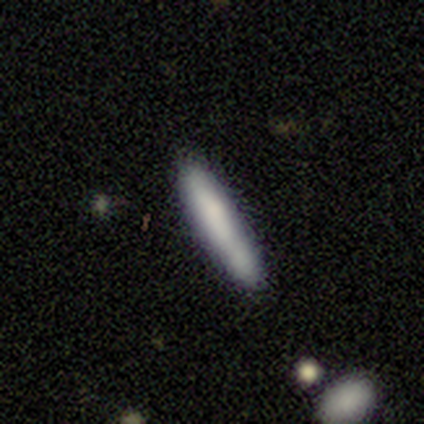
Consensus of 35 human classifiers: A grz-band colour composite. It shows a smooth galaxy with no disk features (89%) that is cigar-shaped (97%). Merging: none (80%).